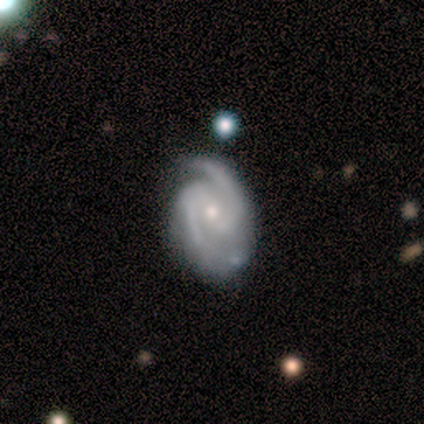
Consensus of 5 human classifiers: featured or disk 100%, smooth 0%, star or artifact 0%. Down the decision tree: edge-on disk — no (100%); bar — weak (80%); spiral arms — yes (100%); spiral arm count — 2 (100%); spiral winding — medium (80%); bulge size — moderate (80%); merging — none (80%).